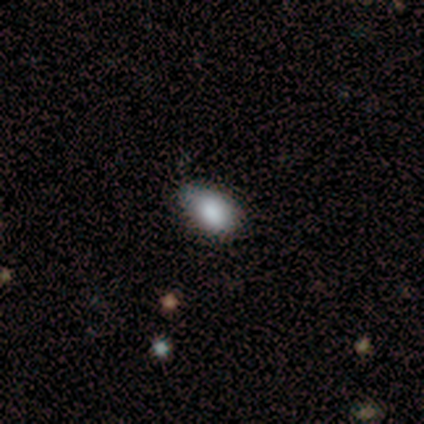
Overall: smooth (90%). How rounded: in between (86%). Merging: none (68%).